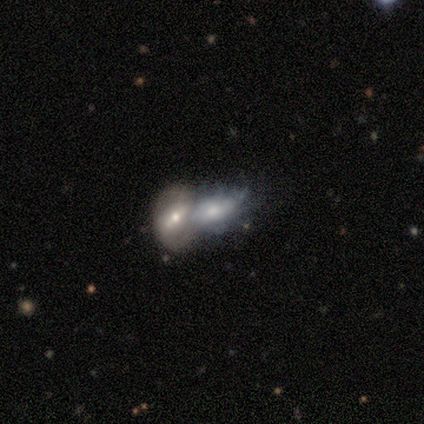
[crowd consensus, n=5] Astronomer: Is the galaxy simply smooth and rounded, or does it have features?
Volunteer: smooth — 60% (runner-up: featured or disk, 40%).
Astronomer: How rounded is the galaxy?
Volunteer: in between — 67%.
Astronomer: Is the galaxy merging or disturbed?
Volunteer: merger — 60%.